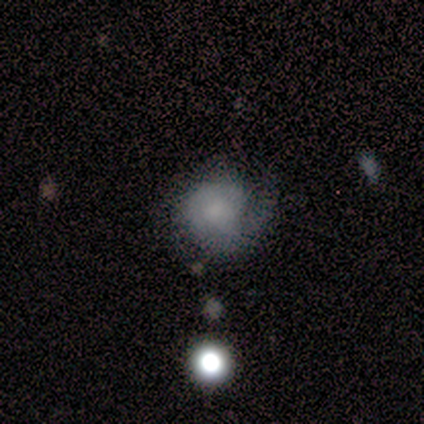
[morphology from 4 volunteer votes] Q: Smooth or featured?
A: featured or disk (50%); runner-up: smooth (25%)
Q: Edge-on disk?
A: no (100%)
Q: Bar?
A: weak (50%); tied with: no (50%)
Q: Spiral arms?
A: yes (100%)
Q: Spiral winding?
A: tight (50%); tied with: loose (50%)
Q: Spiral arm count?
A: 1 (50%); tied with: can't tell (50%)
Q: Bulge size?
A: moderate (100%)
Q: Merging?
A: major disturbance (67%); runner-up: merger (33%)